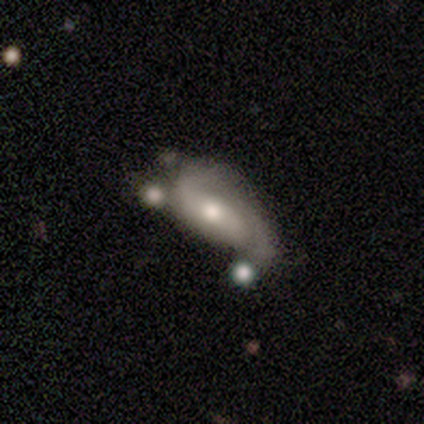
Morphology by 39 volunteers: smooth-or-featured: featured or disk: 82% | smooth: 13% | star or artifact: 5%
  disk-edge-on: no: 100% | yes: 0%
    bar: no: 50% | weak: 28% | strong: 22%
    has-spiral-arms: yes: 91% | no: 9%
      spiral-winding: tight: 38% (tied) | medium: 38% (tied) | loose: 24%
      spiral-arm-count: 2: 62% | 1: 24% | can't tell: 10% | 3: 3% | 4: 0% | more than 4: 0%
    bulge-size: moderate: 75% | small: 19% | large: 3% | none: 3% | dominant: 0%
  merging: minor disturbance: 30% | major disturbance: 27% | none: 24% | merger: 19%